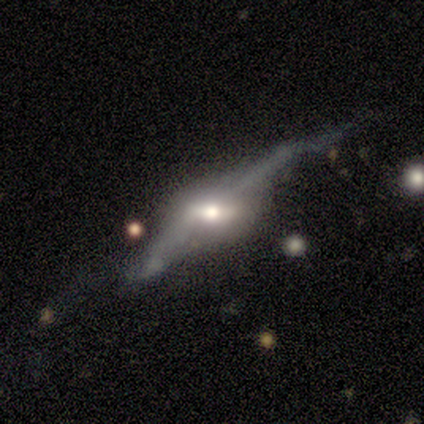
A featured or disk galaxy (75%) viewed edge-on (67%) with a rounded central bulge (100%). Merging: none (50%).